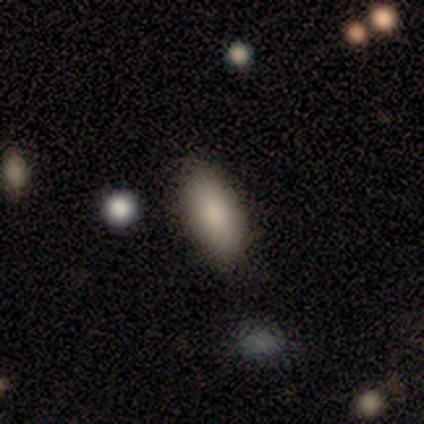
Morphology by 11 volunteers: type=smooth (100%); roundness=in between (82%); merging=none (73%).